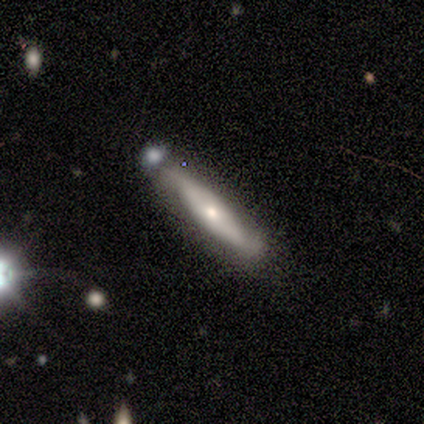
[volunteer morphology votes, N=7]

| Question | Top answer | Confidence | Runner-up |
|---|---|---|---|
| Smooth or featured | featured or disk | 100% | — |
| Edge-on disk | no | 57% | yes (43%) |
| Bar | no | 75% | strong (25%) |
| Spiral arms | yes | 75% | no (25%) |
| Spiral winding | tight | 33% | tied: medium (33%), loose (33%) |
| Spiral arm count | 2 | 100% | — |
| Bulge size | moderate | 50% | tied: small (50%) |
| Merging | none | 100% | — |